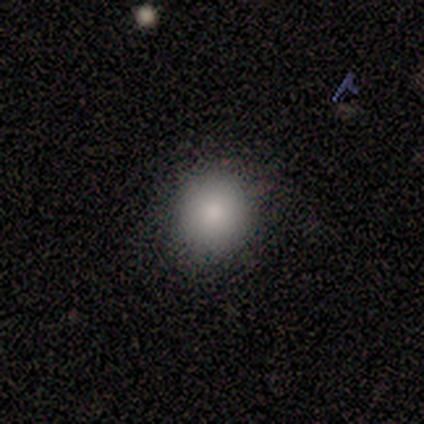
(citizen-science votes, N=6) smooth 83%, featured or disk 17%, star or artifact 0%. Down the decision tree: how rounded — round (80%); merging — none (83%).